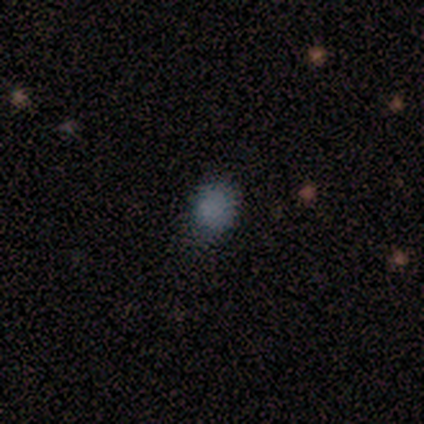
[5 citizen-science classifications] Morphology: type=smooth (80%); roundness=round (50%, tied with in between); merging=none (100%).